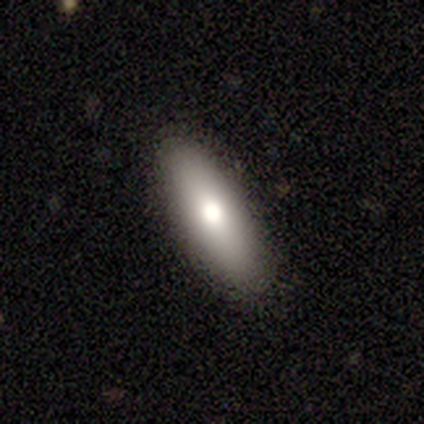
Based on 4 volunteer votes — Smooth or featured?
  - smooth: 100% *
  - featured or disk: 0%
  - star or artifact: 0%
How rounded?
  - in between: 100% *
  - round: 0%
  - cigar-shaped: 0%
Merging?
  - none: 75% *
  - minor disturbance: 25%
  - major disturbance: 0%
  - merger: 0%